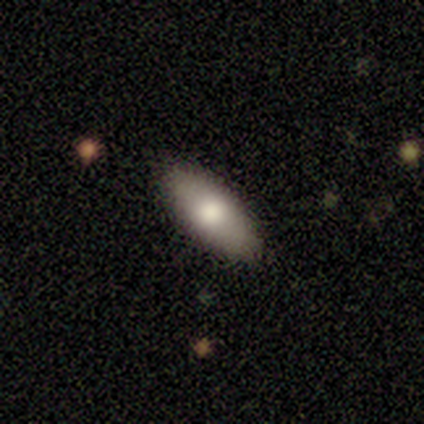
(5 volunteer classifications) Smooth or featured?
  - smooth: 80% *
  - featured or disk: 20%
  - star or artifact: 0%
How rounded?
  - in between: 75% *
  - cigar-shaped: 25%
  - round: 0%
Merging?
  - none: 100% *
  - minor disturbance: 0%
  - major disturbance: 0%
  - merger: 0%